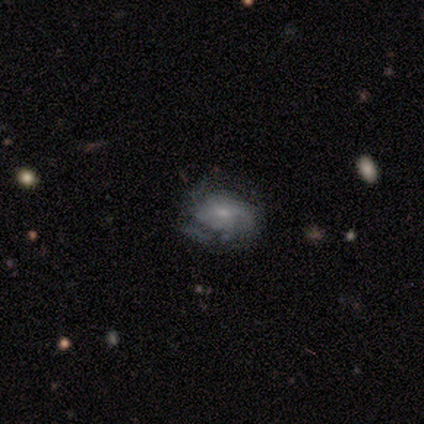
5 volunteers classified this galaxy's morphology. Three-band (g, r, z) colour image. It shows a featured or disk galaxy (100%) with no bar (80%), tight (50%, tied with medium) spiral arms (80%) and a small central bulge (100%). Merging: none (80%).